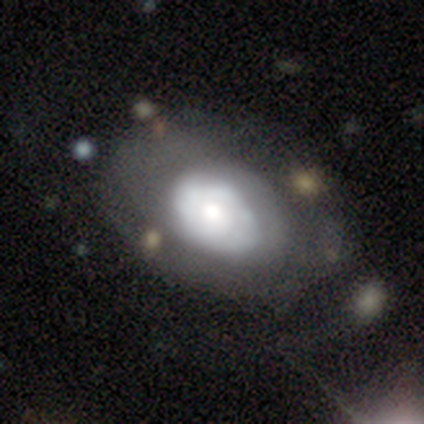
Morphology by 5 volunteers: type=smooth (60%); roundness=in between (67%); merging=none (60%).